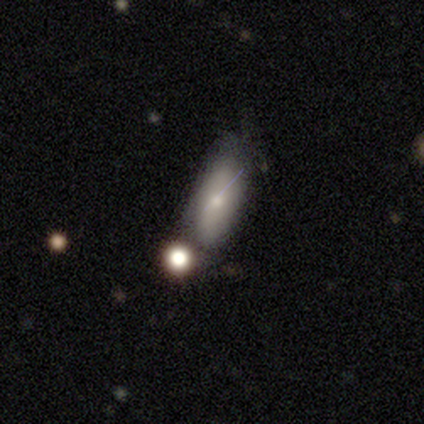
Q: Smooth or featured?
A: smooth (67%); runner-up: star or artifact (33%)
Q: How rounded?
A: in between (100%)
Q: Merging?
A: none (100%)